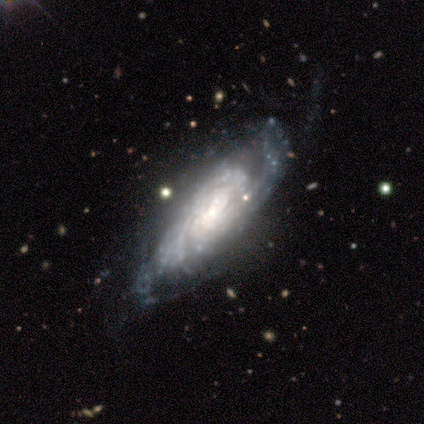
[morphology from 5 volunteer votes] A featured or disk galaxy (100%) with no bar (60%), tight (50%, tied with medium) spiral arms (80%) and no central bulge (60%). Merging: none (60%).